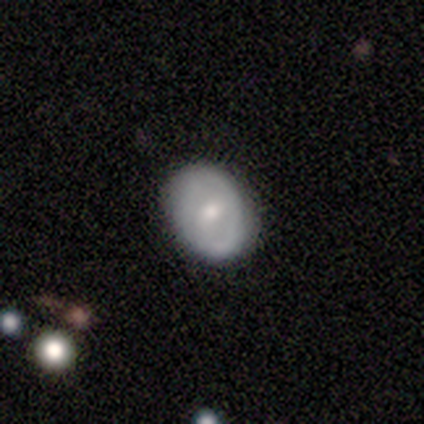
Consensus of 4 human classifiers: Morphology: type=smooth (50%); roundness=round (50%, tied with in between); merging=minor disturbance (67%).